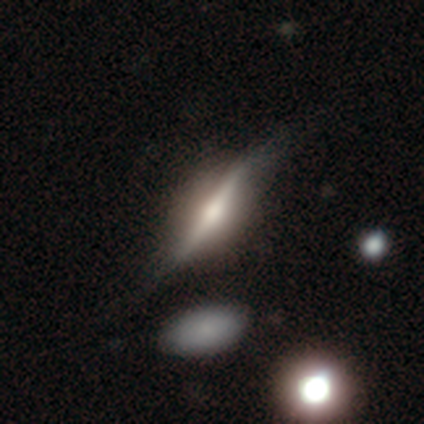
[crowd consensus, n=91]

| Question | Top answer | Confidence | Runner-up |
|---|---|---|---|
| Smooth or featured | featured or disk | 68% | smooth (29%) |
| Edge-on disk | yes | 92% | no (8%) |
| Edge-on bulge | rounded | 79% | none (14%) |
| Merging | none | 62% | minor disturbance (25%) |